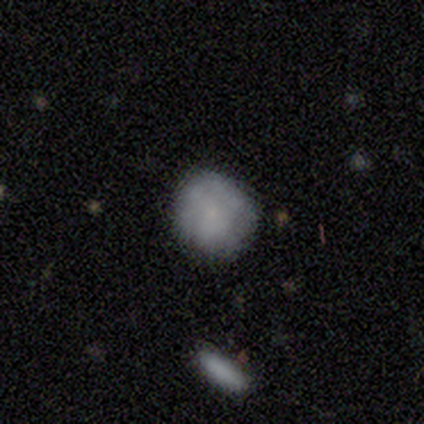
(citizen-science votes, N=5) Morphology: type=smooth (60%); roundness=round (100%); merging=none (50%, tied with minor disturbance).